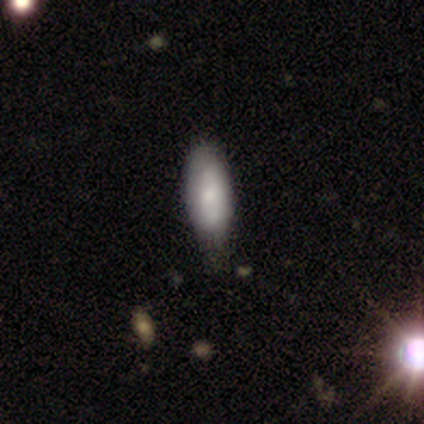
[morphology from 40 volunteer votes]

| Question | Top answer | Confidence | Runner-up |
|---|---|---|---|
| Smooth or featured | smooth | 65% | featured or disk (35%) |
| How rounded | in between | 65% | cigar-shaped (35%) |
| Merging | none | 50% | minor disturbance (48%) |